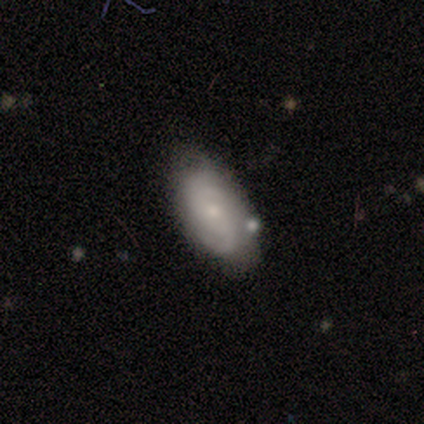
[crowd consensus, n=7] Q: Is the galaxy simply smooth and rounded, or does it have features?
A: featured or disk — 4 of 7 (57%).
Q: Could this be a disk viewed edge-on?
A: no — 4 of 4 (100%).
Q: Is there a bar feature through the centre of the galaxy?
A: no — 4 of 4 (100%).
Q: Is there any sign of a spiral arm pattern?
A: yes — 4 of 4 (100%).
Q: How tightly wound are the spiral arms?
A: tight — 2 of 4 (50%, tied with medium).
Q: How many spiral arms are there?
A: can't tell — 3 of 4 (75%).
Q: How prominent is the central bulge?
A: small — 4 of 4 (100%).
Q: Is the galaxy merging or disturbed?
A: none — 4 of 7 (57%).